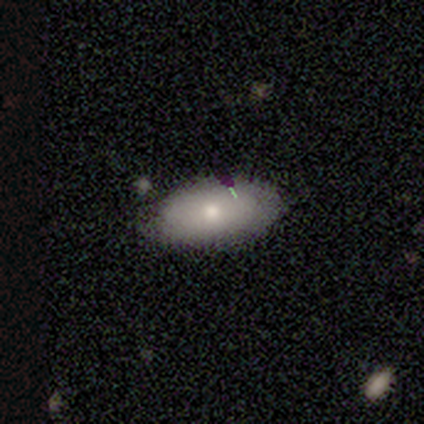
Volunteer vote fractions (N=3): Q: Smooth or featured?
A: smooth (33%); tied with: featured or disk (33%); star or artifact (33%)
Q: How rounded?
A: in between (100%)
Q: Merging?
A: none (50%); tied with: minor disturbance (50%)